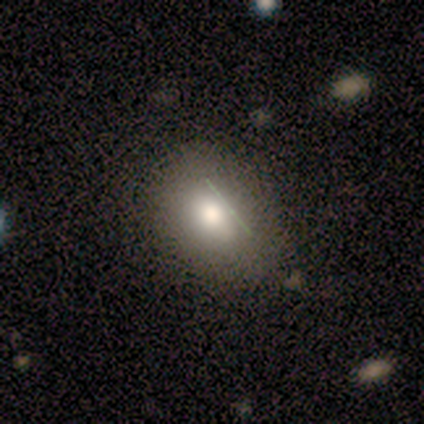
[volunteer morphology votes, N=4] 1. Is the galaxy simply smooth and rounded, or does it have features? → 100% smooth, 0% featured or disk, 0% star or artifact.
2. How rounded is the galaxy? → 100% in between, 0% round, 0% cigar-shaped.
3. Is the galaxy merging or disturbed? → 100% none, 0% minor disturbance, 0% major disturbance, 0% merger.